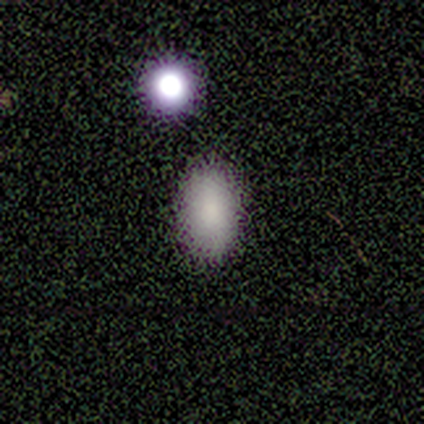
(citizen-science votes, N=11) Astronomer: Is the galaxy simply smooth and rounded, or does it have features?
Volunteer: smooth — 73%.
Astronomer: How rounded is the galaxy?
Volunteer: in between — 100%.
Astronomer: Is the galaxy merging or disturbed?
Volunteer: none — 78%.